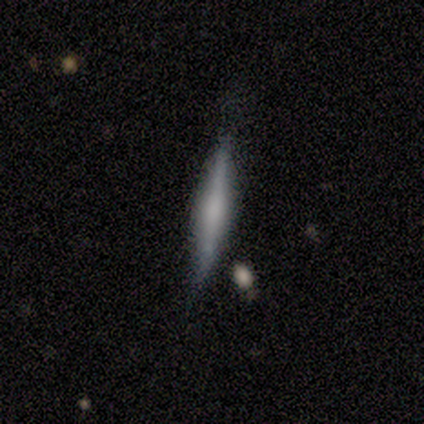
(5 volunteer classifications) featured or disk 60%, smooth 40%, star or artifact 0%. Down the decision tree: edge-on disk — yes (67%); edge-on bulge — boxy (50%, tied with rounded); merging — none (100%).